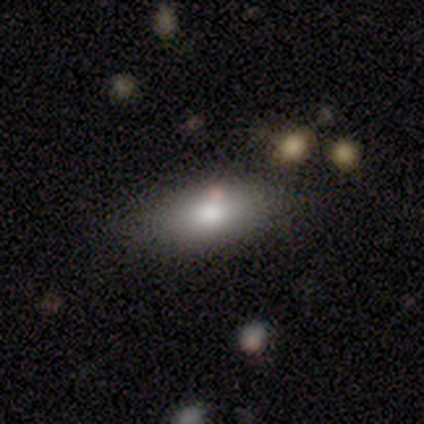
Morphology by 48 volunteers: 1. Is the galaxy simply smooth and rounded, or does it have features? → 81% smooth, 10% featured or disk, 8% star or artifact.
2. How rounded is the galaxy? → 90% in between, 8% cigar-shaped, 3% round.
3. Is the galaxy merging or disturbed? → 82% none, 9% minor disturbance, 5% major disturbance, 5% merger.